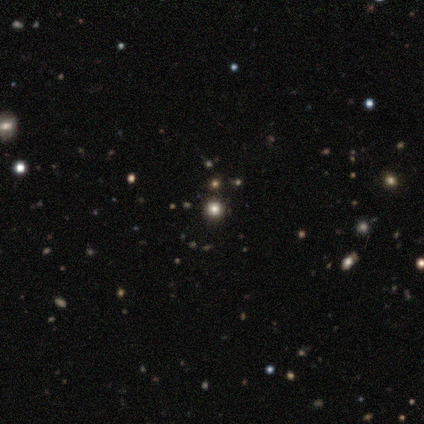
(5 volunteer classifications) Q: Smooth or featured?
A: star or artifact (80%); runner-up: smooth (20%)